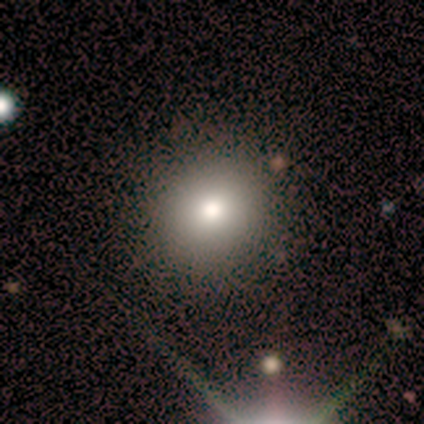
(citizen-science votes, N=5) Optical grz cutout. It shows a smooth galaxy with no disk features (60%) that is round (100%). Merging: none (100%).